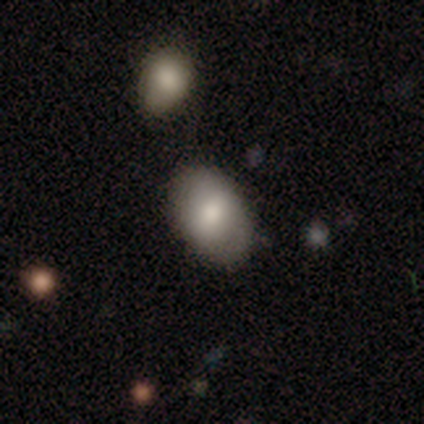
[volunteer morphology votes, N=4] Volunteers were most divided on "how rounded": in between: 75%, round: 25%, cigar-shaped: 0%. More confident: smooth or featured — smooth (100%); merging — none (100%).